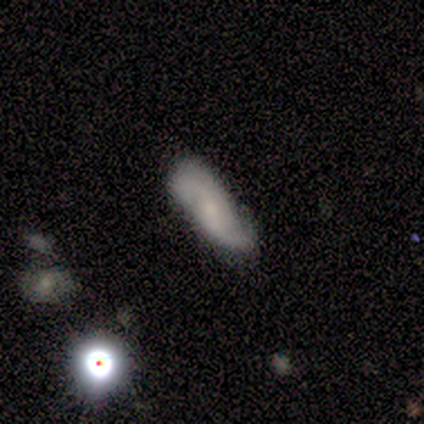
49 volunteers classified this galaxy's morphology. A featured or disk galaxy (63%) with no bar (53%), 2 (83%) loose (43%) spiral arms (100%) and a small central bulge (70%).

Vote fractions:
- Smooth or featured? featured or disk: 63% / smooth: 20% / star or artifact: 16%
- Edge-on disk? no: 97% / yes: 3%
- Bar? no: 53% / weak: 40% / strong: 7%
- Spiral arms? yes: 100% / no: 0%
- Spiral winding? loose: 43% / medium: 40% / tight: 17%
- Spiral arm count? 2: 83% / can't tell: 10% / 1: 3% / 3: 3% / 4: 0% / more than 4: 0%
- Bulge size? small: 70% / moderate: 20% / dominant: 3% / large: 3% / none: 3%
- Merging? none: 71% / minor disturbance: 17% / merger: 7% / major disturbance: 5%